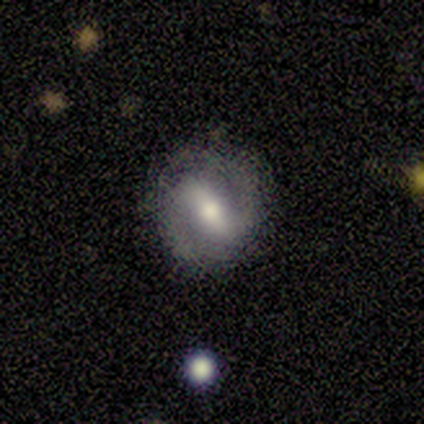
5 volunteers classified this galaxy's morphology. smooth_or_featured: featured or disk (p=0.80) [alt: smooth p=0.20]
disk_edge_on: no (p=1.00)
bar: strong (p=0.50) [tied with: weak p=0.50]
has_spiral_arms: yes (p=0.75) [alt: no p=0.25]
spiral_winding: tight (p=0.67) [alt: medium p=0.33]
spiral_arm_count: 2 (p=1.00)
bulge_size: moderate (p=1.00)
merging: none (p=0.80) [alt: minor disturbance p=0.20]